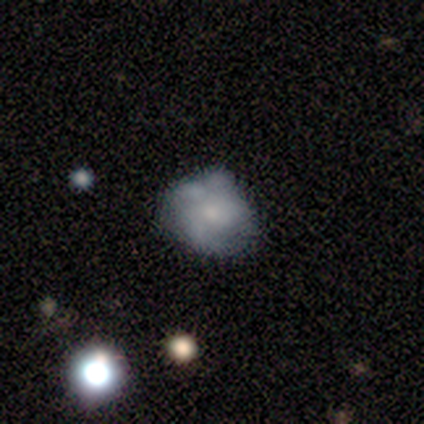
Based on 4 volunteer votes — A smooth galaxy with no disk features (50%) that is round (50%, tied with in between). Merging: major disturbance (67%).